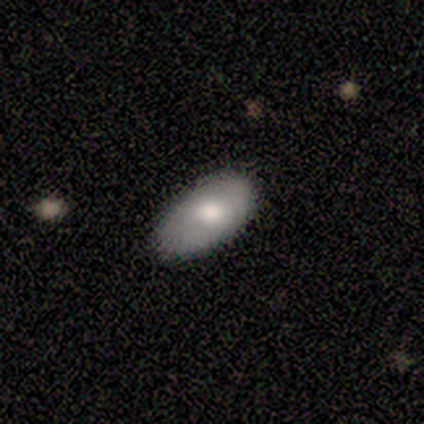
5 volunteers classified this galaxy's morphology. Volunteers were most divided on "merging": none: 60%, minor disturbance: 40%, major disturbance: 0%, merger: 0%. More confident: how rounded — in between (100%); smooth or featured — smooth (80%).